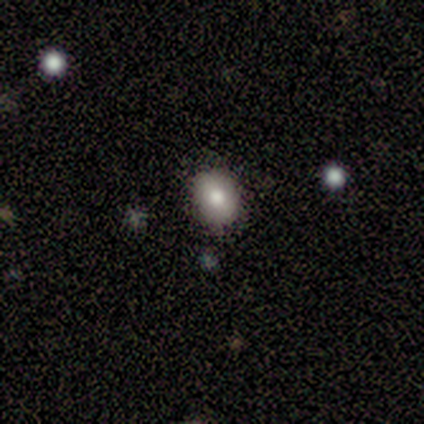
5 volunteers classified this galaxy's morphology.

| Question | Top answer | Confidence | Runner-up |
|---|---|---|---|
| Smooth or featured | smooth | 100% | — |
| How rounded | in between | 80% | round (20%) |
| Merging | none | 100% | — |